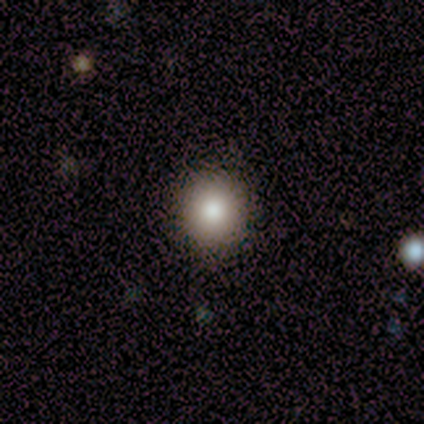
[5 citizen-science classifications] smooth 80%, featured or disk 20%, star or artifact 0%. Down the decision tree: how rounded — round (100%); merging — none (100%).